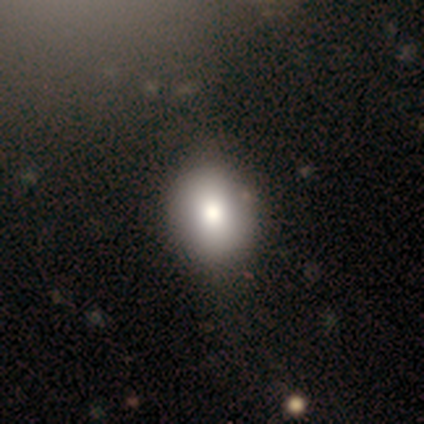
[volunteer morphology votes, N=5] Smooth or featured? smooth (80%)
How rounded? round (50%, tied with in between)
Merging? none (75%)